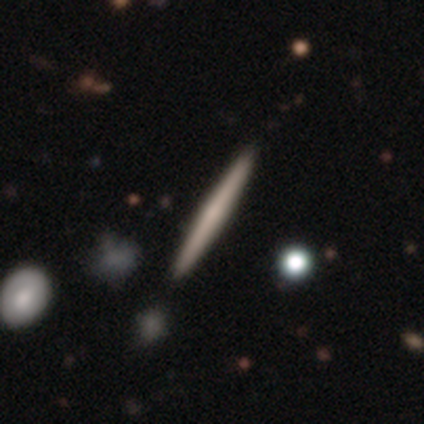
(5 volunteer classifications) Volunteers were most divided on "smooth or featured": featured or disk: 80%, smooth: 20%, star or artifact: 0%. More confident: edge-on disk — yes (100%); edge-on bulge — none (100%); merging — none (100%).